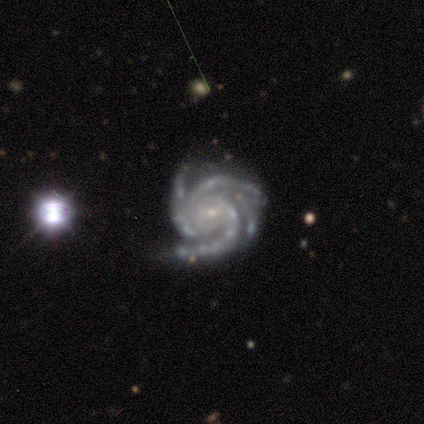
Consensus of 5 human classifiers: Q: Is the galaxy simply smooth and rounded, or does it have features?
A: featured or disk — 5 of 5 (100%).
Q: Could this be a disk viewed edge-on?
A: no — 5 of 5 (100%).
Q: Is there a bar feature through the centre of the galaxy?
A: no — 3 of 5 (60%).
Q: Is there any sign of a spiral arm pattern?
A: yes — 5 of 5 (100%).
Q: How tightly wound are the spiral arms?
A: tight — 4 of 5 (80%).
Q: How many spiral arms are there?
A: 4 — 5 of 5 (100%).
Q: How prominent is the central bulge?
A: small — 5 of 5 (100%).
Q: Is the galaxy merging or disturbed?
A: none — 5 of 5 (100%).